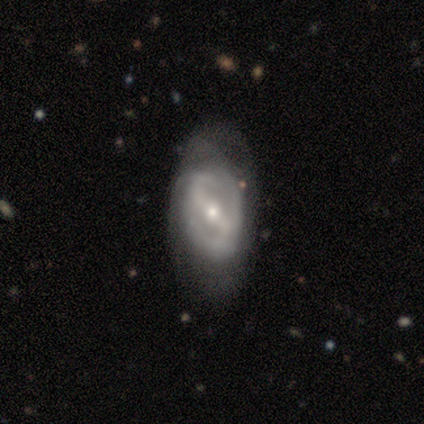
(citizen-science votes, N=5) featured or disk 80%, smooth 20%, star or artifact 0%. Down the decision tree: edge-on disk — no (100%); bar — strong (50%, tied with weak); spiral arms — no (75%); bulge size — small (100%); merging — minor disturbance (60%).